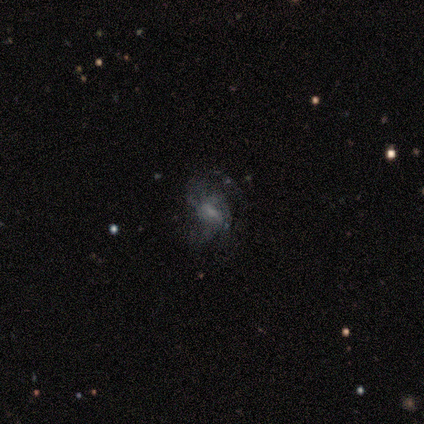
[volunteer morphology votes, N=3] A featured or disk galaxy (67%) with a weak bar (100%), 2 (100%) medium (100%) spiral arms (50%, tied with no) and a moderate central bulge (50%, tied with none).

Vote fractions:
- Smooth or featured? featured or disk: 67% / smooth: 33% / star or artifact: 0%
- Edge-on disk? no: 100% / yes: 0%
- Bar? weak: 100% / strong: 0% / no: 0%
- Spiral arms? yes: 50% (tied) / no: 50% (tied)
- Spiral winding? medium: 100% / tight: 0% / loose: 0%
- Spiral arm count? 2: 100% / 1: 0% / 3: 0% / 4: 0% / more than 4: 0% / can't tell: 0%
- Bulge size? moderate: 50% (tied) / none: 50% (tied) / dominant: 0% / large: 0% / small: 0%
- Merging? none: 67% / major disturbance: 33% / minor disturbance: 0% / merger: 0%